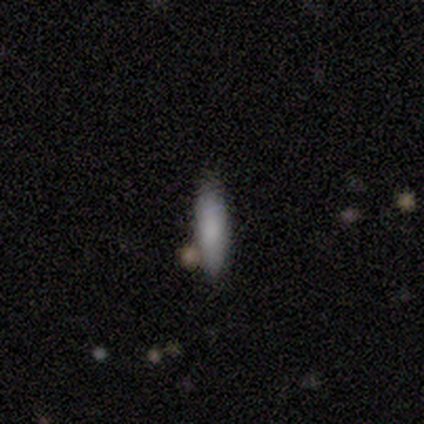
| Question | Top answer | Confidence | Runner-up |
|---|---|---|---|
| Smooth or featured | smooth | 80% | star or artifact (20%) |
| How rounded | in between | 50% | tied: cigar-shaped (50%) |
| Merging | none | 50% | tied: minor disturbance (50%) |